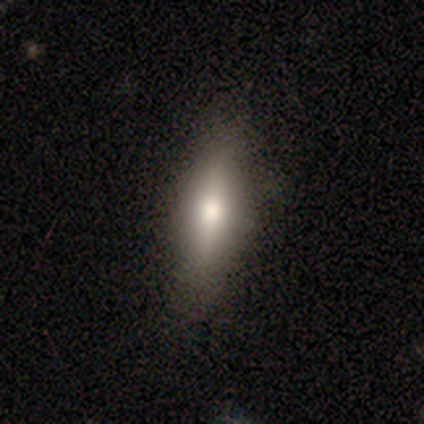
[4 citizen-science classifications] Overall: smooth (75%). How rounded: in between (67%; cigar-shaped 33%). Merging: none (100%).